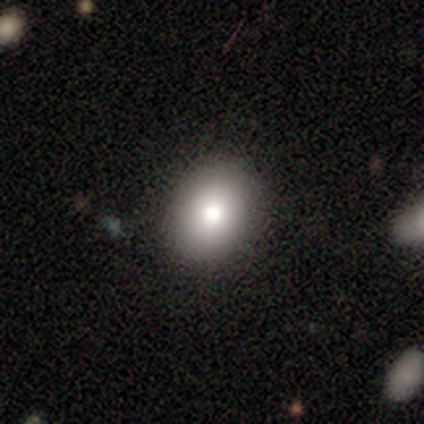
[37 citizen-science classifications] This is clearly a smooth galaxy (89%). How rounded: likely in between (61%). Merging: likely none (60%).